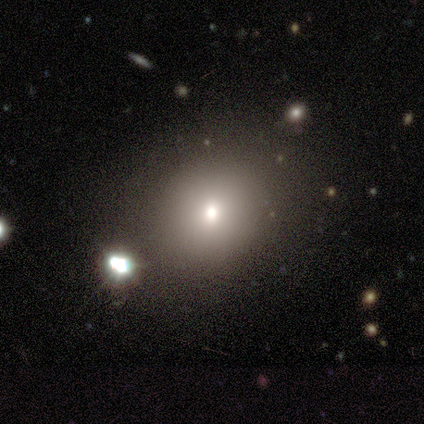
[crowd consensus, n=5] Smooth or featured? smooth (80%)
How rounded? round (50%, tied with in between)
Merging? none (50%)